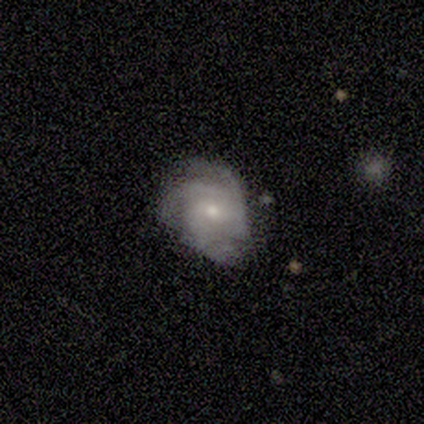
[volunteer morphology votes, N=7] Q: Smooth or featured?
A: featured or disk (71%); runner-up: smooth (29%)
Q: Edge-on disk?
A: no (100%)
Q: Bar?
A: no (80%); runner-up: weak (20%)
Q: Spiral arms?
A: yes (100%)
Q: Spiral winding?
A: tight (60%); runner-up: medium (40%)
Q: Spiral arm count?
A: 3 (80%); runner-up: 4 (20%)
Q: Bulge size?
A: small (60%); runner-up: moderate (40%)
Q: Merging?
A: none (57%); runner-up: minor disturbance (43%)